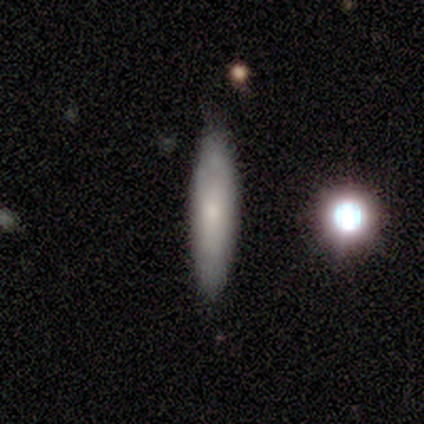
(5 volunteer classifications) Overall: smooth (60%; featured or disk 40%). How rounded: cigar-shaped (100%). Merging: none (60%; minor disturbance 40%).